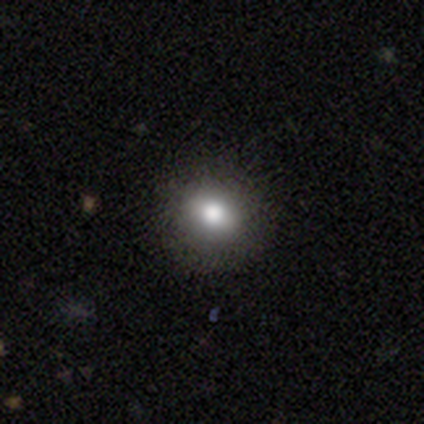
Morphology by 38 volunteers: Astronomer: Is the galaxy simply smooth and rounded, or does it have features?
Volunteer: smooth — 74%.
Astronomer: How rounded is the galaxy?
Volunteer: round — 89%.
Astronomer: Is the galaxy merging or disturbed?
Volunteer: none — 91%.